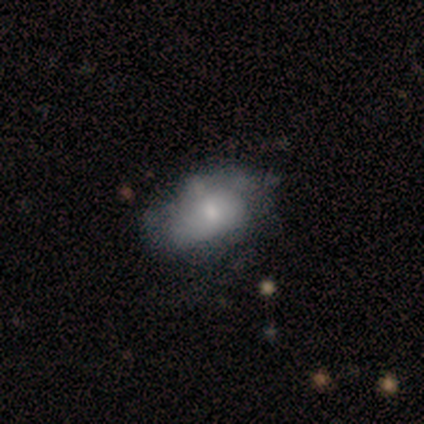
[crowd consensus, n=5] Smooth or featured?
  - smooth: 100% *
  - featured or disk: 0%
  - star or artifact: 0%
How rounded?
  - in between: 80% *
  - cigar-shaped: 20%
  - round: 0%
Merging?
  - minor disturbance: 60% *
  - none: 40%
  - major disturbance: 0%
  - merger: 0%